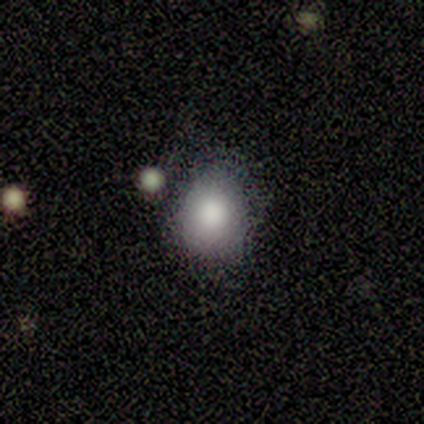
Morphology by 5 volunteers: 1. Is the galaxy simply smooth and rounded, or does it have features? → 60% smooth, 20% featured or disk, 20% star or artifact.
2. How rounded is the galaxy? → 67% in between, 33% round, 0% cigar-shaped.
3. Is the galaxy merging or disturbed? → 100% none, 0% minor disturbance, 0% major disturbance, 0% merger.